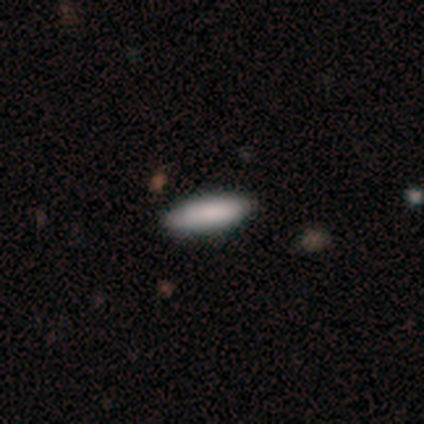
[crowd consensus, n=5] Smooth or featured? smooth (80%)
How rounded? in between (75%)
Merging? none (50%)